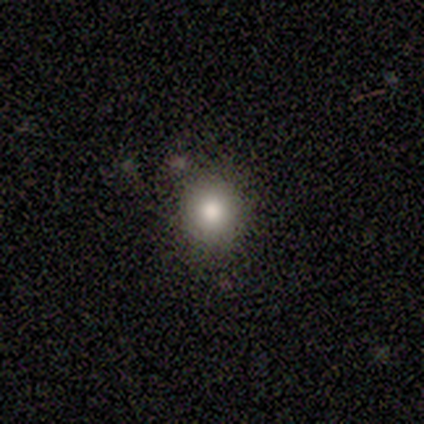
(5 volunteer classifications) A smooth galaxy with no disk features (100%) that is round (80%). Merging: none (100%).